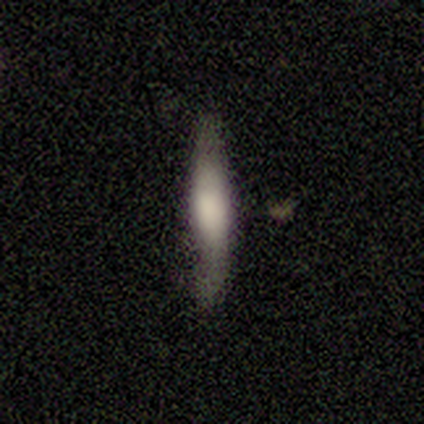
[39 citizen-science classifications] Overall: smooth (67%). How rounded: cigar-shaped (96%). Merging: none (74%).